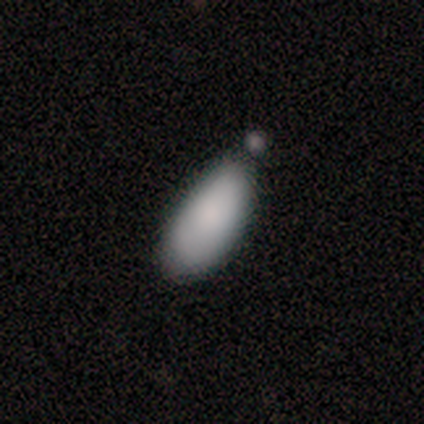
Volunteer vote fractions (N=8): Overall: smooth (75%). How rounded: in between (67%; cigar-shaped 33%). Merging: minor disturbance (50%; none 33%).